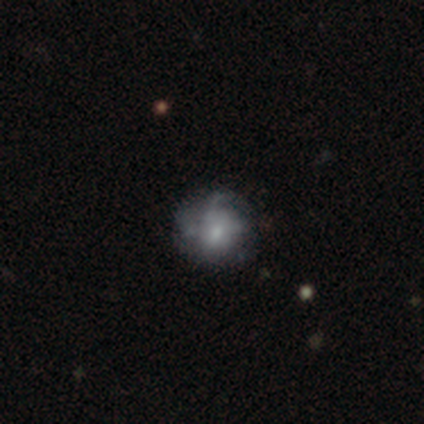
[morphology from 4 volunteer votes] A smooth galaxy with no disk features (50%) that is round (50%, tied with in between).

Vote fractions:
- Smooth or featured? smooth: 50% / featured or disk: 25% / star or artifact: 25%
- How rounded? round: 50% (tied) / in between: 50% (tied) / cigar-shaped: 0%
- Merging? none: 67% / major disturbance: 33% / minor disturbance: 0% / merger: 0%